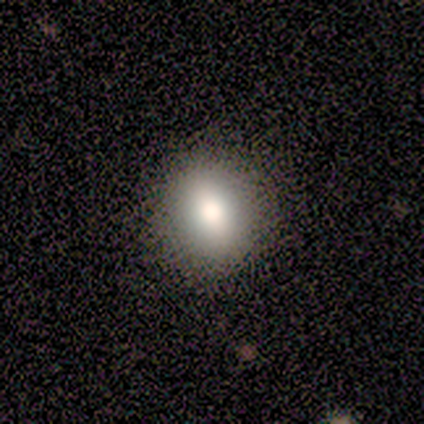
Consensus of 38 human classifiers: Smooth or featured? 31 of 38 (82%) said smooth. How rounded? 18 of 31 (58%) said round. Merging? 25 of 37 (68%) said none.